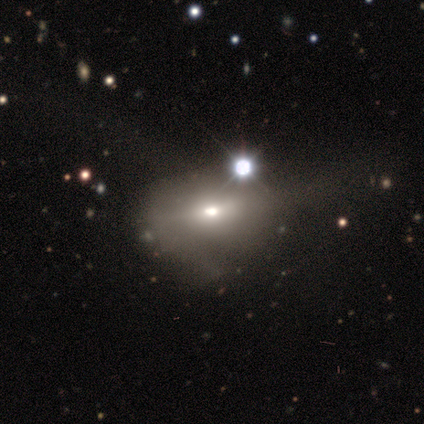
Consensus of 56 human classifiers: Smooth or featured?
  - smooth: 57% *
  - featured or disk: 25%
  - star or artifact: 18%
How rounded?
  - in between: 91% *
  - round: 6%
  - cigar-shaped: 3%
Merging?
  - major disturbance: 30% *
  - minor disturbance: 24%
  - none: 17%
  - merger: 9%